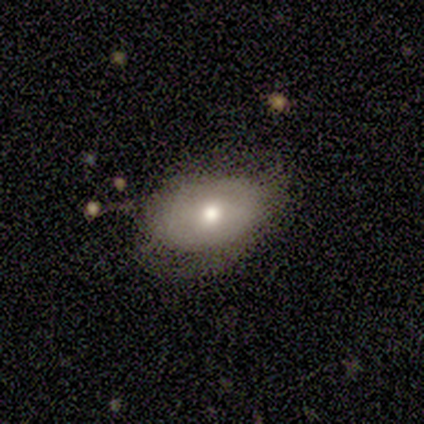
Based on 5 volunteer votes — Smooth or featured? 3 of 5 (60%) said smooth. How rounded? 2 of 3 (67%) said in between. Merging? 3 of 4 (75%) said none.